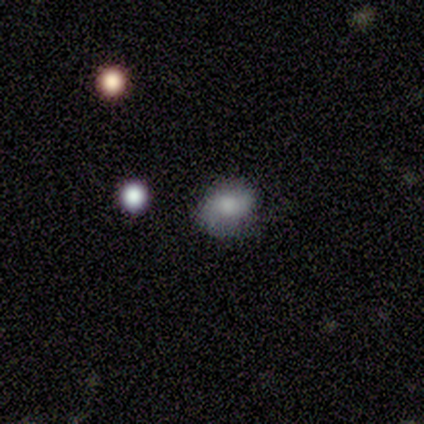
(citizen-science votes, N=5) A smooth galaxy with no disk features (100%) that is in between round and cigar-shaped (60%). Merging: none (100%).